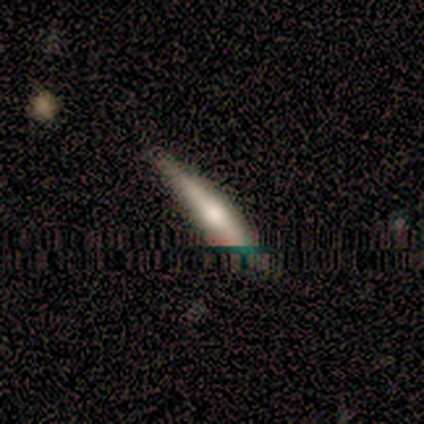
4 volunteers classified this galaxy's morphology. smooth_or_featured: featured or disk (p=0.50) [alt: smooth p=0.25]
disk_edge_on: yes (p=1.00)
edge_on_bulge: rounded (p=1.00)
merging: none (p=0.33) [tied with: minor disturbance p=0.33, major disturbance p=0.33]